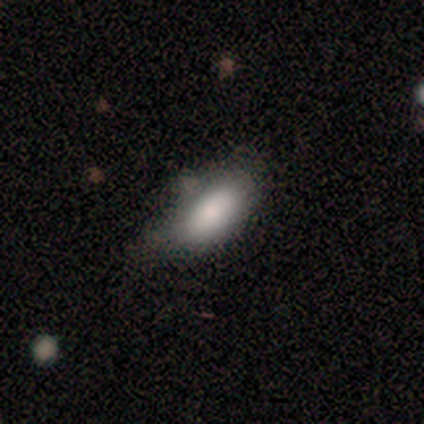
smooth-or-featured: smooth: 80% | featured or disk: 20% | star or artifact: 0%
  how-rounded: in between: 100% | round: 0% | cigar-shaped: 0%
  merging: none: 60% | minor disturbance: 40% | major disturbance: 0% | merger: 0%